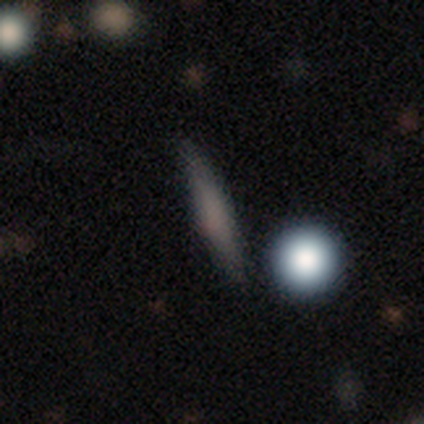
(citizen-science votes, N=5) smooth_or_featured: smooth (p=0.80) [alt: featured or disk p=0.20]
how_rounded: cigar-shaped (p=0.75) [alt: in between p=0.25]
merging: none (p=0.80) [alt: major disturbance p=0.20]